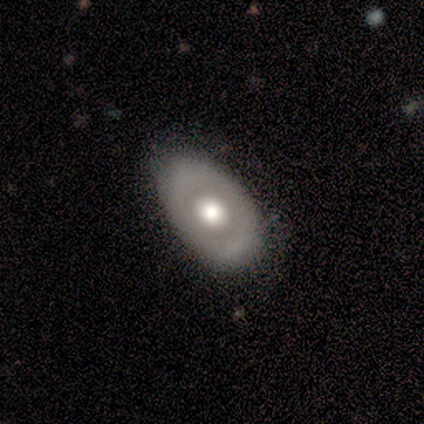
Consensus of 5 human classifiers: smooth-or-featured: smooth: 60% | featured or disk: 40% | star or artifact: 0%
  how-rounded: in between: 100% | round: 0% | cigar-shaped: 0%
  merging: none: 80% | minor disturbance: 20% | major disturbance: 0% | merger: 0%